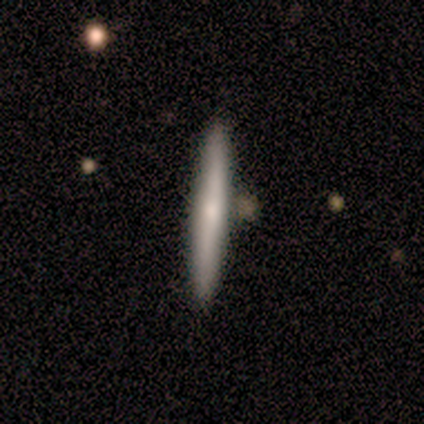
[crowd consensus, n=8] Morphology: type=featured or disk (75%); edge-on=yes (100%); edge-on bulge=none (50%, tied with rounded); merging=none (88%).